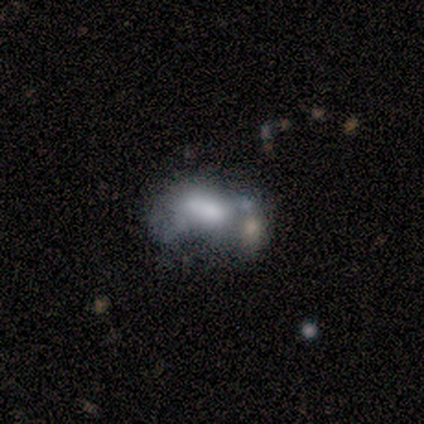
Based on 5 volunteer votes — Smooth or featured? featured or disk (80%)
Edge-on disk? no (100%)
Bar? no (100%)
Spiral arms? no (75%)
Bulge size? small (75%)
Merging? minor disturbance (50%)